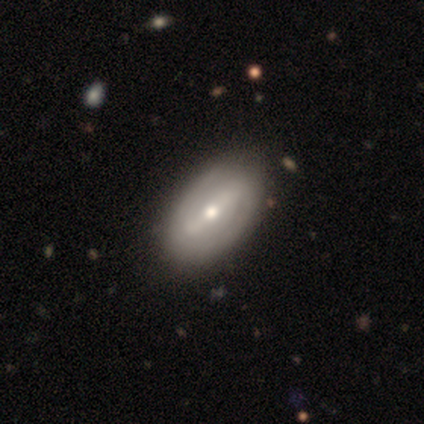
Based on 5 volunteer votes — Volunteers were most divided on "smooth or featured": featured or disk: 60%, smooth: 40%, star or artifact: 0%. More confident: edge-on disk — no (100%); merging — none (80%); bar — weak (67%); spiral arms — no (67%); bulge size — small (67%).